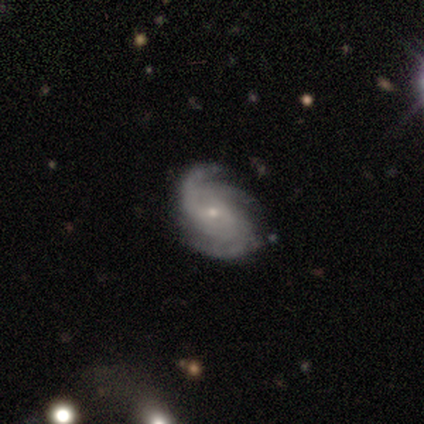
A featured or disk galaxy (95%) with no bar (55%), 3 (59%) tight (53%) spiral arms (96%) and a small central bulge (83%). Merging: none (84%).